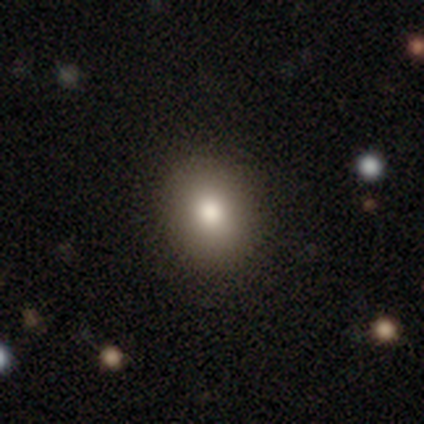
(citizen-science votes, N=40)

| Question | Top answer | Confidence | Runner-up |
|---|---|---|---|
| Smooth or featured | smooth | 80% | star or artifact (12%) |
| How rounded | round | 56% | in between (44%) |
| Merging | none | 71% | minor disturbance (14%) |